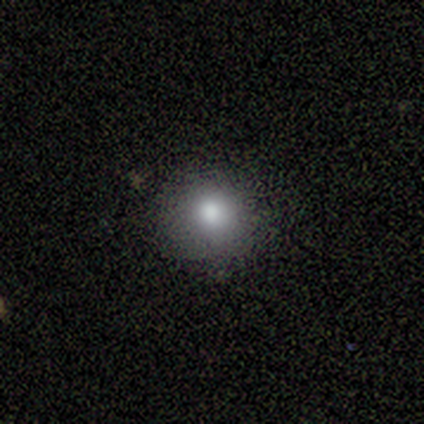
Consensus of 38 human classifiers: Q: Smooth or featured?
A: smooth (74%); runner-up: star or artifact (16%)
Q: How rounded?
A: round (82%); runner-up: in between (18%)
Q: Merging?
A: none (62%); runner-up: minor disturbance (22%)